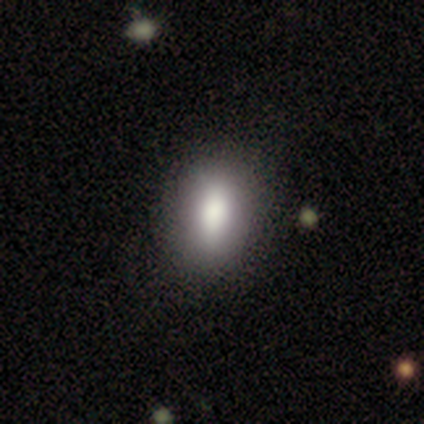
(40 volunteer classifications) Smooth or featured? 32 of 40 (80%) said smooth. How rounded? 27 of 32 (84%) said in between. Merging? 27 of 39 (69%) said none.